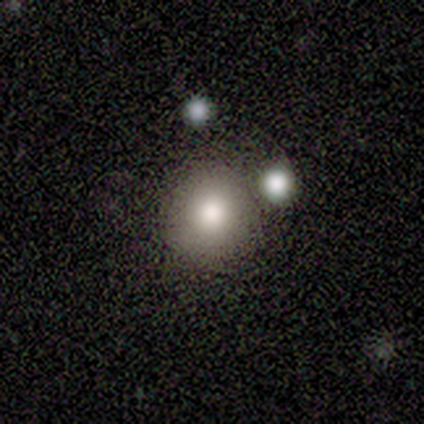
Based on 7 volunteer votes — Smooth or featured? smooth (86%)
How rounded? round (83%)
Merging? none (83%)